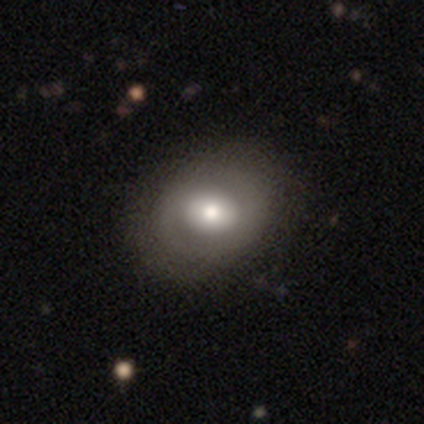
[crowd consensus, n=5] Smooth or featured: smooth — 40% (tied with featured or disk — 40%)
How rounded: in between — 100%
Merging: none — 100%